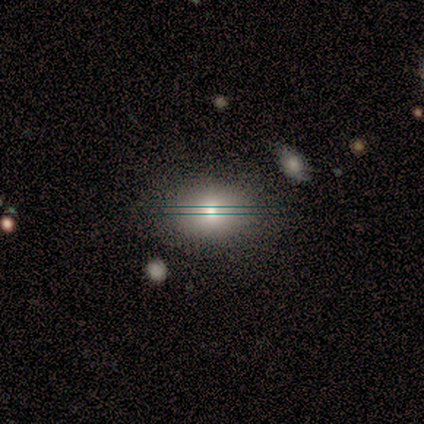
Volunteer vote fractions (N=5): This appears to be a smooth galaxy with no disk features (80%) that is in between round and cigar-shaped (100%). Merging: none (75%).